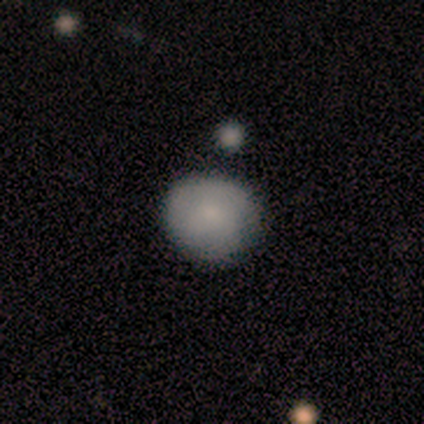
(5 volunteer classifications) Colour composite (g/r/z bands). It shows a smooth galaxy with no disk features (100%) that is round (80%). Merging: none (80%).